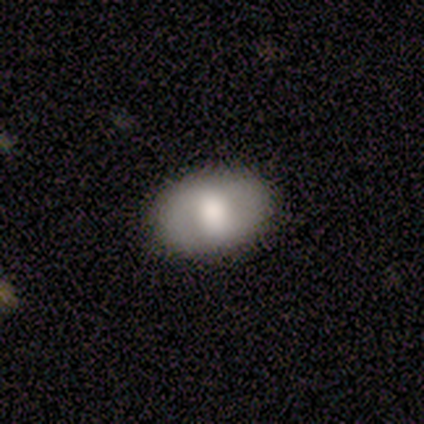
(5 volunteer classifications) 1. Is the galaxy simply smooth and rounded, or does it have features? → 80% smooth, 20% featured or disk, 0% star or artifact.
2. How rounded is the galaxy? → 100% in between, 0% round, 0% cigar-shaped.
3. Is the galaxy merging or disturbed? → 100% none, 0% minor disturbance, 0% major disturbance, 0% merger.